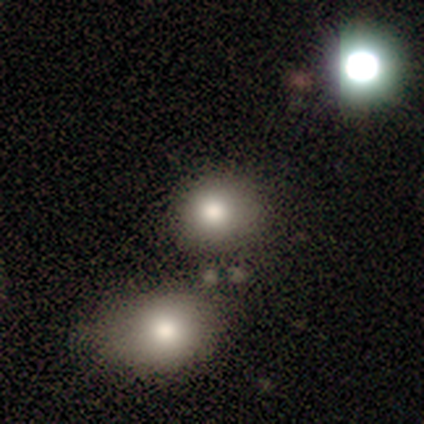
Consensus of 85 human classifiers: Smooth or featured? smooth (65%)
How rounded? round (71%)
Merging? none (59%)